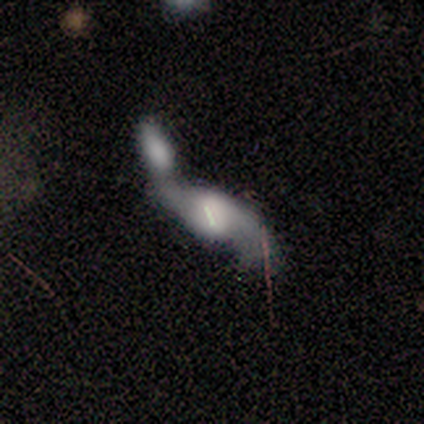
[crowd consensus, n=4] A smooth galaxy with no disk features (50%, tied with featured or disk) that is in between round and cigar-shaped (50%, tied with cigar-shaped). Merging: merger (50%).